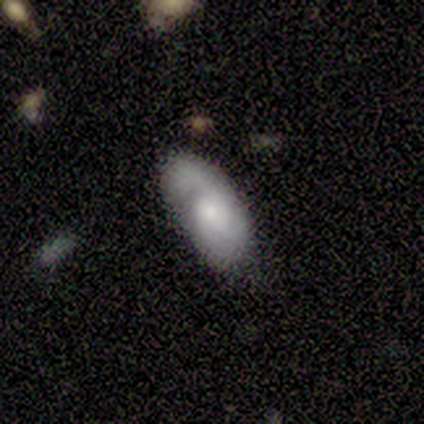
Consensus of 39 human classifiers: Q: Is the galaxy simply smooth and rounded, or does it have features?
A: smooth — 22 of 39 (56%).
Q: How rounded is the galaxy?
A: in between — 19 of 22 (86%).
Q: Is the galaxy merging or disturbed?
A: none — 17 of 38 (45%).